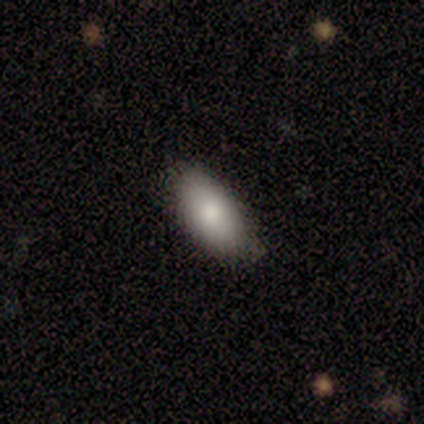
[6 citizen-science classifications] Smooth or featured: smooth — 83% (star or artifact — 17%)
How rounded: in between — 100%
Merging: none — 100%